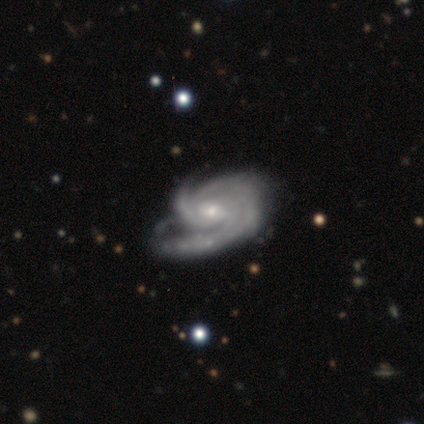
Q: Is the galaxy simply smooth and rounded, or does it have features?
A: featured or disk — 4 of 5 (80%).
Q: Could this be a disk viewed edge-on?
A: no — 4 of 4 (100%).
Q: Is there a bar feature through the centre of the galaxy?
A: no — 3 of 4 (75%).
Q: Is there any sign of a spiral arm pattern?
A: yes — 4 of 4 (100%).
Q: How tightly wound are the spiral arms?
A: tight — 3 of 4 (75%).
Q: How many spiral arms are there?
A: can't tell — 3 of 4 (75%).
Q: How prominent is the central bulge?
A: small — 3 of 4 (75%).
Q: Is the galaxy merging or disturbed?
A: minor disturbance — 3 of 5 (60%).